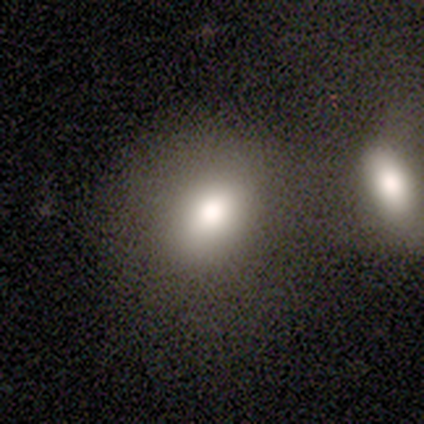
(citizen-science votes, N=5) Morphology: type=smooth (80%); roundness=round (50%, tied with in between); merging=none (60%).